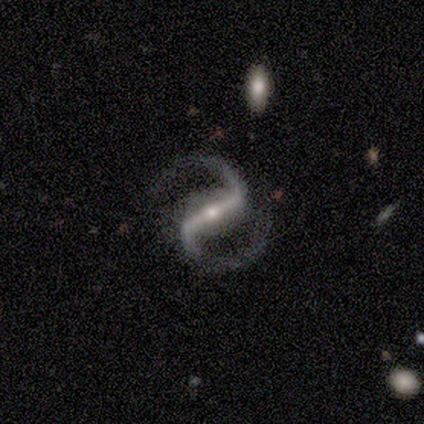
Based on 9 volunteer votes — This appears to be a featured or disk galaxy (100%) with a strong bar (78%), 2 (89%) medium (67%) spiral arms (100%) and a small central bulge (67%). Merging: none (67%).